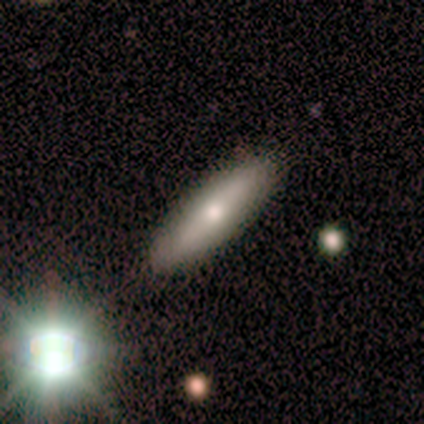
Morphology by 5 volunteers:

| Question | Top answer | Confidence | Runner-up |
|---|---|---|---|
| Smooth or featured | smooth | 40% | tied: star or artifact (40%) |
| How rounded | in between | 100% | — |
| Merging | none | 100% | — |